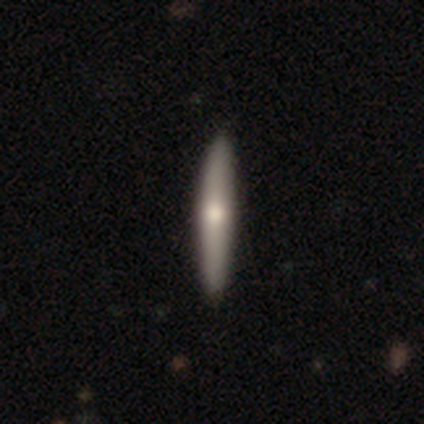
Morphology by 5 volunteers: A featured or disk galaxy (60%) viewed edge-on (100%) with a rounded central bulge (100%).

Vote fractions:
- Smooth or featured? featured or disk: 60% / smooth: 40% / star or artifact: 0%
- Edge-on disk? yes: 100% / no: 0%
- Edge-on bulge? rounded: 100% / boxy: 0% / none: 0%
- Merging? none: 100% / minor disturbance: 0% / major disturbance: 0% / merger: 0%